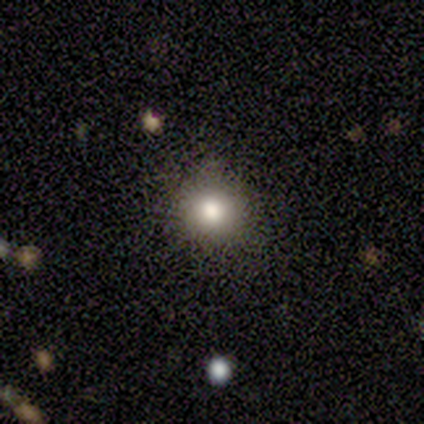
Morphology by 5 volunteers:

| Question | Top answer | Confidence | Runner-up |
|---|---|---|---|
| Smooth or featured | smooth | 100% | — |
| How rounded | round | 80% | in between (20%) |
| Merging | none | 60% | minor disturbance (20%) |